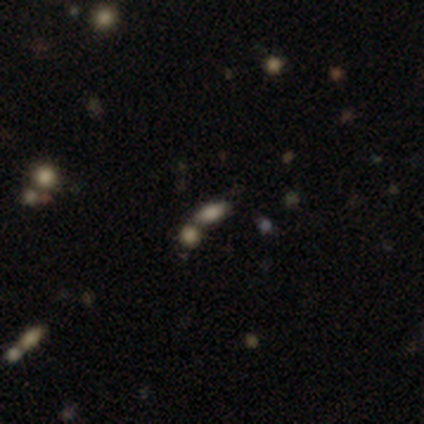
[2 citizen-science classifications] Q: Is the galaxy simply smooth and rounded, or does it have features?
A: smooth — 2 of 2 (100%).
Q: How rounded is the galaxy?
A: in between — 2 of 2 (100%).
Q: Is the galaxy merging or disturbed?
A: merger — 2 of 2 (100%).